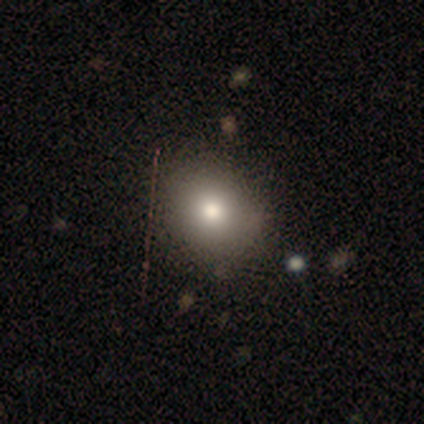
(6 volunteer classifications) Morphology: type=smooth (83%); roundness=round (80%); merging=none (67%).